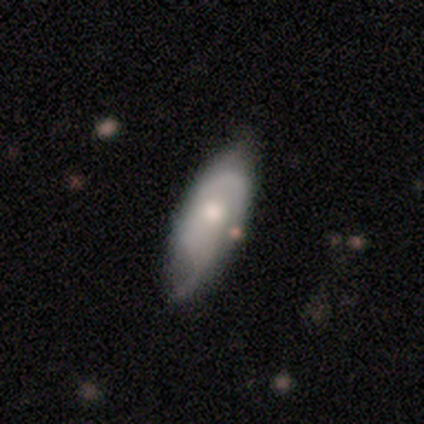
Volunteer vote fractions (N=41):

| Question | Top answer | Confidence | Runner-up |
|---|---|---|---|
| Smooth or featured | featured or disk | 71% | smooth (24%) |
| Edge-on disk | no | 90% | yes (10%) |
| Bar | no | 85% | weak (12%) |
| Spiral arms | yes | 88% | no (12%) |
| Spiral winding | medium | 65% | tight (17%) |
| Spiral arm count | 2 | 48% | can't tell (39%) |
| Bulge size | moderate | 54% | small (27%) |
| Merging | none | 67% | minor disturbance (28%) |